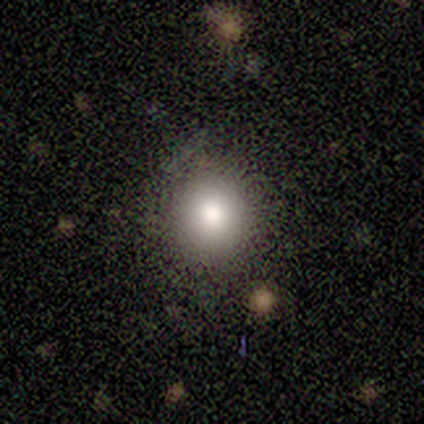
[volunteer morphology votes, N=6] This is clearly a smooth galaxy (83%). How rounded: clearly round (100%). Merging: clearly none (83%).